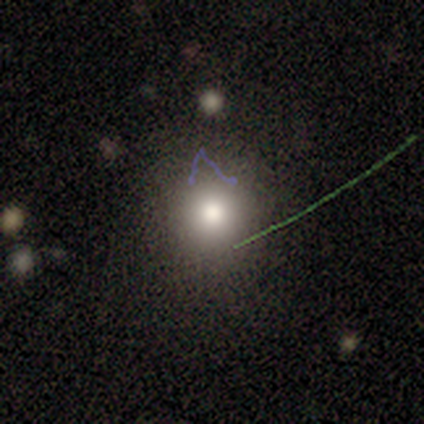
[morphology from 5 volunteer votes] Smooth or featured? smooth (60%)
How rounded? round (100%)
Merging? none (80%)